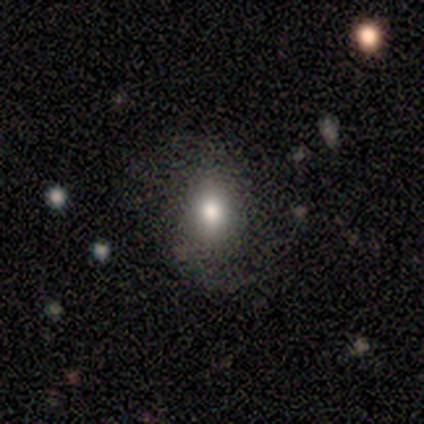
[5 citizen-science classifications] Smooth or featured? 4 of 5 (80%) said smooth. How rounded? 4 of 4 (100%) said in between. Merging? 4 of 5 (80%) said none.